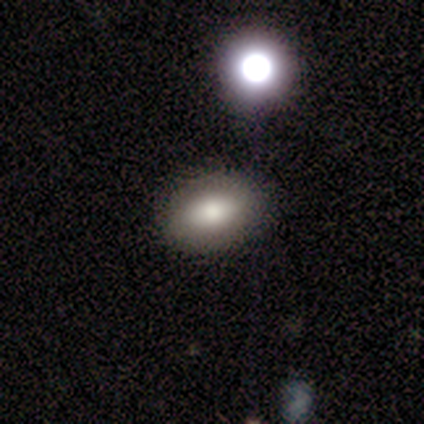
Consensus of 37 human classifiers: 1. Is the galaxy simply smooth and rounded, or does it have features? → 78% smooth, 14% star or artifact, 8% featured or disk.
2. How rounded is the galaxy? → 97% in between, 3% round, 0% cigar-shaped.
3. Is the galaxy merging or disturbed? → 94% none, 6% minor disturbance, 0% major disturbance, 0% merger.